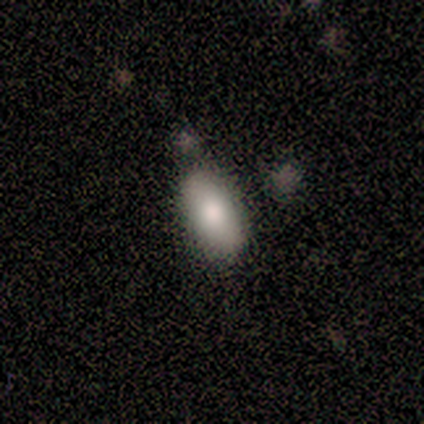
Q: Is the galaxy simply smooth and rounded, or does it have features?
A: smooth — 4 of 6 (67%).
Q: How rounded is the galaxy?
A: in between — 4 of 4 (100%).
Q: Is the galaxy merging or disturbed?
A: none — 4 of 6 (67%).